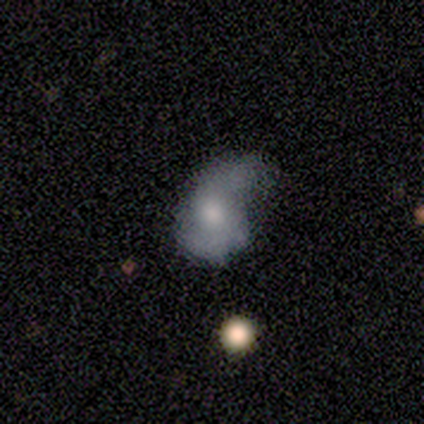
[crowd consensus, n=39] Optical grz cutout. It shows a featured or disk galaxy (54%) with no bar (57%), 2 (92%) loose (67%) spiral arms (57%) and a moderate central bulge (52%). Merging: minor disturbance (29%).